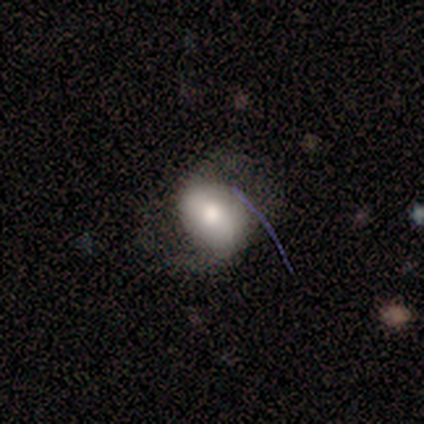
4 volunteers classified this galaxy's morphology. This is possibly a smooth galaxy (50%, tied with featured or disk). How rounded: clearly in between (100%). Merging: possibly none (50%).